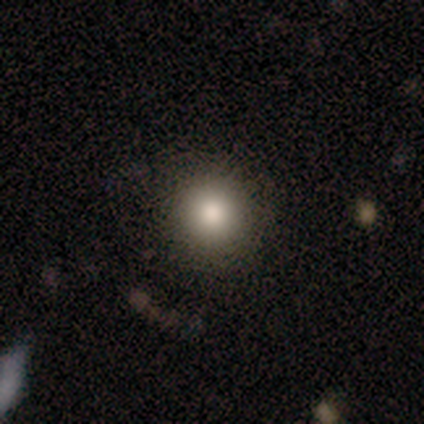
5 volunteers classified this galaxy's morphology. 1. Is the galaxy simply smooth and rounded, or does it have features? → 100% smooth, 0% featured or disk, 0% star or artifact.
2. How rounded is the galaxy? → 100% round, 0% in between, 0% cigar-shaped.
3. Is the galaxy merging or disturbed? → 60% none, 20% minor disturbance, 20% major disturbance, 0% merger.